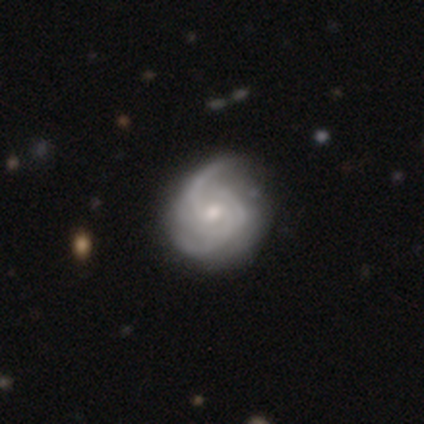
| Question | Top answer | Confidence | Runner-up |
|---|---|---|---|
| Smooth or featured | featured or disk | 84% | smooth (11%) |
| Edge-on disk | no | 100% | — |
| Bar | no | 69% | weak (27%) |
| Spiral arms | yes | 97% | no (3%) |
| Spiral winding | medium | 55% | tight (34%) |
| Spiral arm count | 2 | 37% | 3 (34%) |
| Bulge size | small | 52% | moderate (43%) |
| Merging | none | 26% | minor disturbance (18%) |